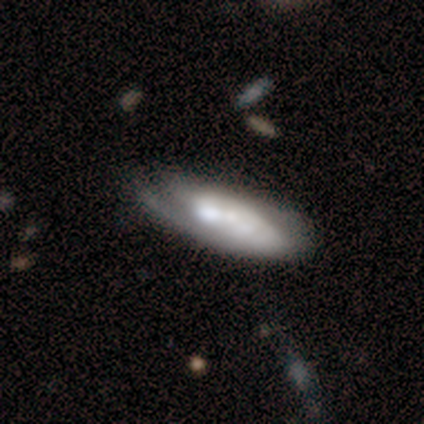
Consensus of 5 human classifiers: smooth-or-featured: featured or disk: 100% | smooth: 0% | star or artifact: 0%
  disk-edge-on: yes: 60% | no: 40%
    edge-on-bulge: rounded: 67% | none: 33% | boxy: 0%
  merging: none: 40% (tied) | minor disturbance: 40% (tied) | major disturbance: 20% | merger: 0%